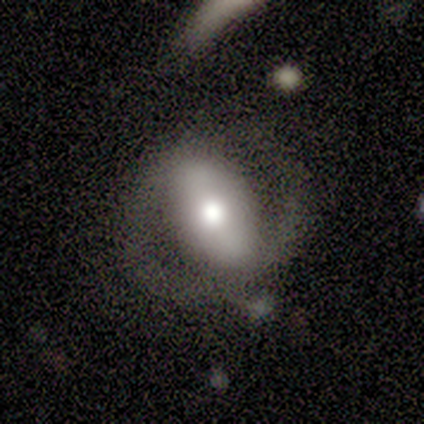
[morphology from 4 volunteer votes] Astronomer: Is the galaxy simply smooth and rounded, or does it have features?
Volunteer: featured or disk — 100%.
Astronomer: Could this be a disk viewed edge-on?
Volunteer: no — 75%.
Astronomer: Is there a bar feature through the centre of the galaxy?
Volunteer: strong — 67%.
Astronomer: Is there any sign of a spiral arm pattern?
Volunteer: yes — 67%.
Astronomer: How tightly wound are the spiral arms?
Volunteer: tight — 50%, tied with medium at 50%.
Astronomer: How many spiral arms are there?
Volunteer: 2 — 100%.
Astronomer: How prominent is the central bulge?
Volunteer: dominant — 33%, tied with large and moderate at 33%.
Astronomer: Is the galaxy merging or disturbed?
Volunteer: none — 50%, tied with minor disturbance at 50%.